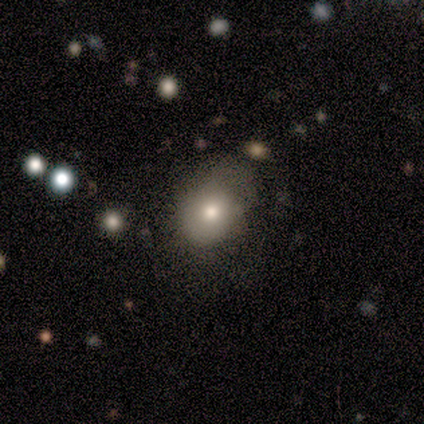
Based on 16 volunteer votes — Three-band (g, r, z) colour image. It shows a smooth galaxy with no disk features (75%) that is round (67%). Merging: none (64%).